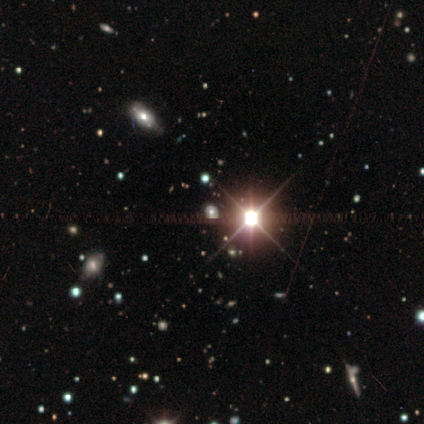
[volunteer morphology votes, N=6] smooth-or-featured: star or artifact: 100% | smooth: 0% | featured or disk: 0%